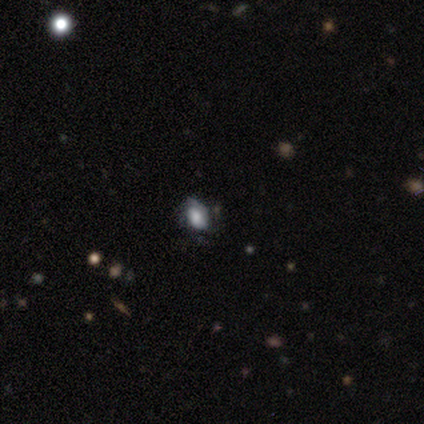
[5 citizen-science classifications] This appears to be a smooth galaxy with no disk features (60%) that is in between round and cigar-shaped (100%). Merging: minor disturbance (75%).